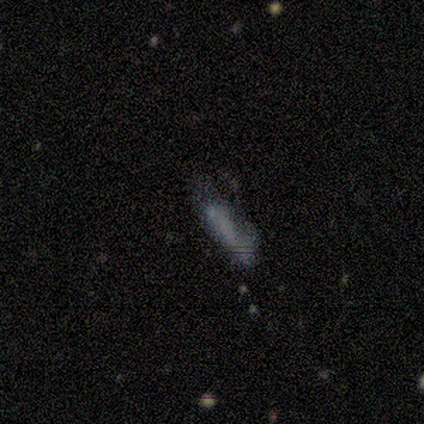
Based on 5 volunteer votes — Smooth or featured?
  - smooth: 60% *
  - featured or disk: 20%
  - star or artifact: 20%
How rounded?
  - in between: 67% *
  - cigar-shaped: 33%
  - round: 0%
Merging?
  - none: 50% * (tied)
  - minor disturbance: 50% * (tied)
  - major disturbance: 0%
  - merger: 0%